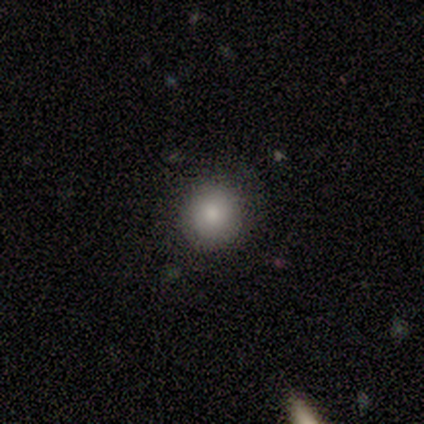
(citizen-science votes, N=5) Smooth or featured? 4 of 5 (80%) said smooth. How rounded? 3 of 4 (75%) said round. Merging? 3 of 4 (75%) said none.